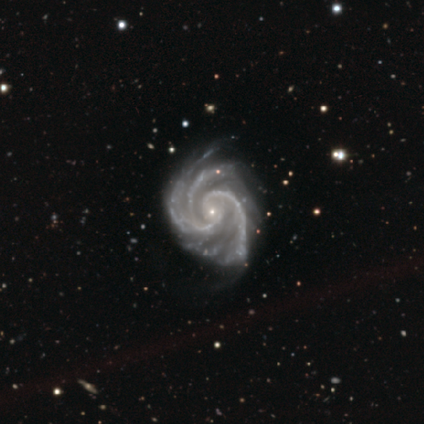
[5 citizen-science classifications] This is clearly a featured or disk galaxy (100%). It is clearly not viewed edge-on (100%). Bar: clearly no (80%). Spiral arm pattern: clearly yes (100%). Spiral arm count: likely 2 (60%). Spiral winding: clearly medium (80%). Central bulge: clearly small (100%). Merging: marginally none (40%, tied with minor disturbance).